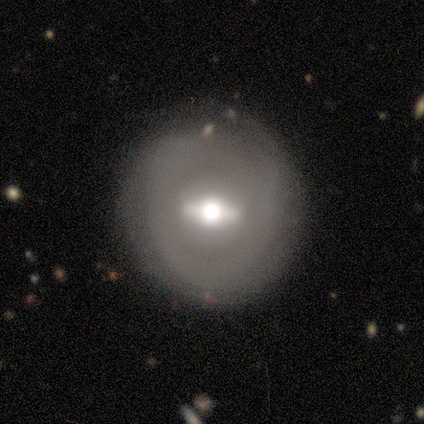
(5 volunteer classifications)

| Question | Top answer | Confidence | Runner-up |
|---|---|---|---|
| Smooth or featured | featured or disk | 80% | star or artifact (20%) |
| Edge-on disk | no | 100% | — |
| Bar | strong | 100% | — |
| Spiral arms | no | 75% | yes (25%) |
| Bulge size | moderate | 75% | large (25%) |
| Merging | none | 50% | tied: minor disturbance (50%) |